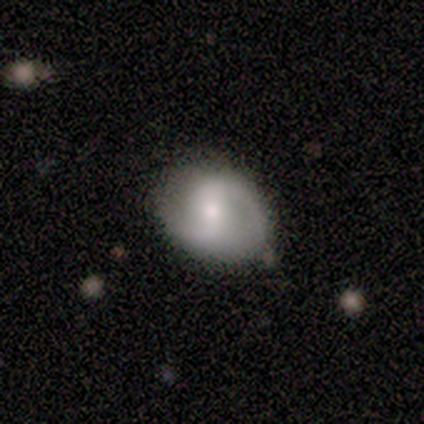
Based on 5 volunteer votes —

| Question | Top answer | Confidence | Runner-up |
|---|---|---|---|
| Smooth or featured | featured or disk | 80% | smooth (20%) |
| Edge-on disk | no | 100% | — |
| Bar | weak | 50% | strong (25%) |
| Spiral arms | yes | 50% | tied: no (50%) |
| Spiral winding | medium | 50% | tied: loose (50%) |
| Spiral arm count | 2 | 100% | — |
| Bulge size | moderate | 50% | small (25%) |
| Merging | none | 80% | minor disturbance (20%) |